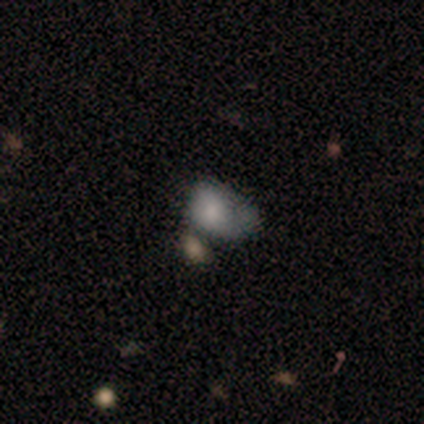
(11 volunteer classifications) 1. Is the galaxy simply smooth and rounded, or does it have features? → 73% smooth, 18% featured or disk, 9% star or artifact.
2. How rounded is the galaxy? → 50% round (tied), 50% in between (tied), 0% cigar-shaped.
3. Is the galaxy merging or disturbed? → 50% major disturbance, 30% minor disturbance, 20% none, 0% merger.